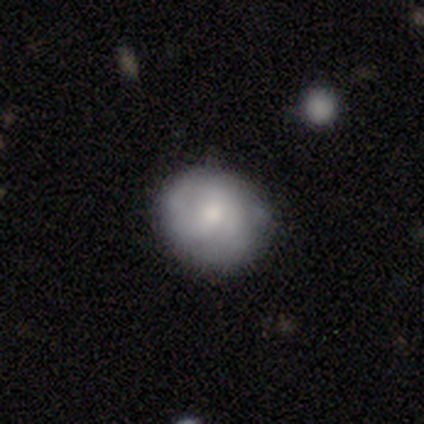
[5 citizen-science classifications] This appears to be a smooth galaxy with no disk features (80%) that is round (75%). Merging: none (100%).